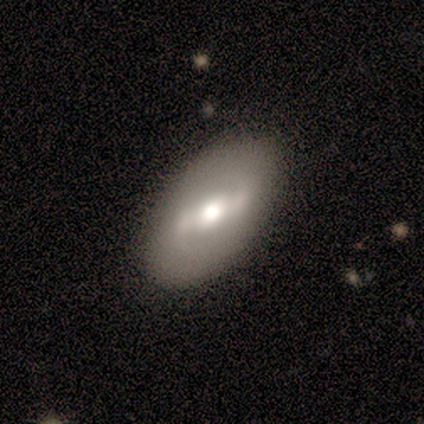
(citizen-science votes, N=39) Smooth or featured?
  - featured or disk: 74% *
  - smooth: 26%
  - star or artifact: 0%
Edge-on disk?
  - no: 93% *
  - yes: 7%
Bar?
  - strong: 63% *
  - weak: 22%
  - no: 15%
Spiral arms?
  - yes: 63% *
  - no: 37%
Spiral winding?
  - medium: 41% * (tied)
  - loose: 41% * (tied)
  - tight: 18%
Spiral arm count?
  - 2: 94% *
  - can't tell: 6%
  - 1: 0%
  - 3: 0%
  - 4: 0%
  - more than 4: 0%
Bulge size?
  - moderate: 67% *
  - large: 22%
  - dominant: 7%
  - small: 4%
  - none: 0%
Merging?
  - none: 69% *
  - minor disturbance: 5%
  - major disturbance: 0%
  - merger: 0%